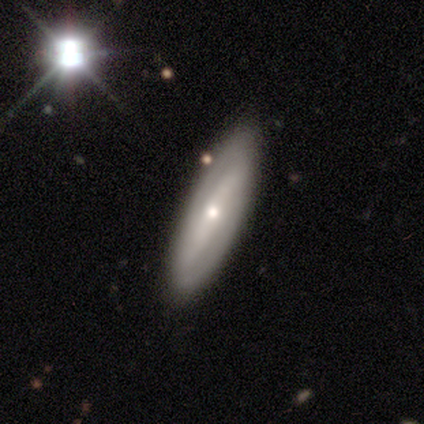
This appears to be a featured or disk galaxy (80%) viewed edge-on (75%) with a boxy central bulge (33%, tied with none and rounded). Merging: none (80%).